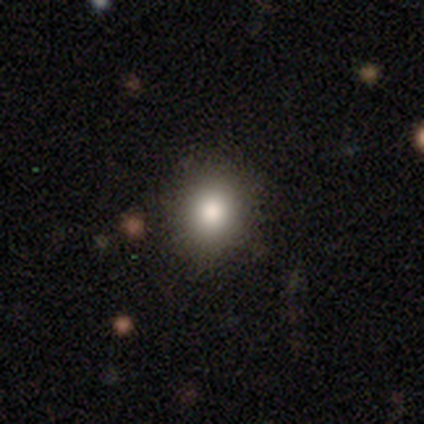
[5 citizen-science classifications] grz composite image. It shows a smooth galaxy with no disk features (100%) that is in between round and cigar-shaped (60%). Merging: none (80%).